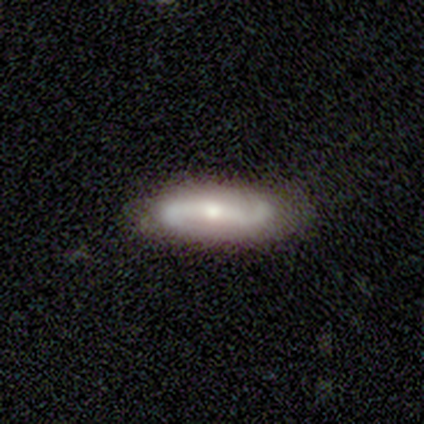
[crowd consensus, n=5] smooth-or-featured: featured or disk: 80% | smooth: 20% | star or artifact: 0%
  disk-edge-on: no: 75% | yes: 25%
    bar: strong: 33% (tied) | weak: 33% (tied) | no: 33% (tied)
    has-spiral-arms: yes: 100% | no: 0%
      spiral-winding: loose: 100% | tight: 0% | medium: 0%
      spiral-arm-count: 2: 100% | 1: 0% | 3: 0% | 4: 0% | more than 4: 0% | can't tell: 0%
    bulge-size: moderate: 67% | none: 33% | dominant: 0% | large: 0% | small: 0%
  merging: none: 100% | minor disturbance: 0% | major disturbance: 0% | merger: 0%